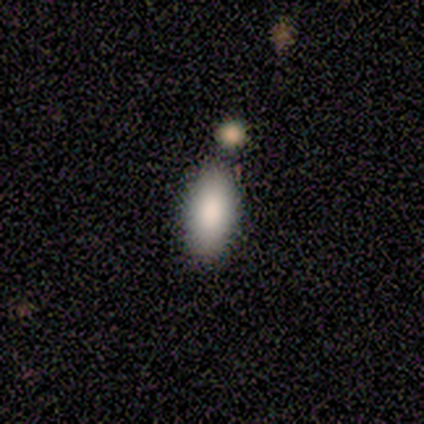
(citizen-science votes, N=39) A smooth galaxy with no disk features (90%) that is in between round and cigar-shaped (89%).

Vote fractions:
- Smooth or featured? smooth: 90% / featured or disk: 10% / star or artifact: 0%
- How rounded? in between: 89% / cigar-shaped: 9% / round: 3%
- Merging? none: 44% / merger: 21% / minor disturbance: 13% / major disturbance: 3%